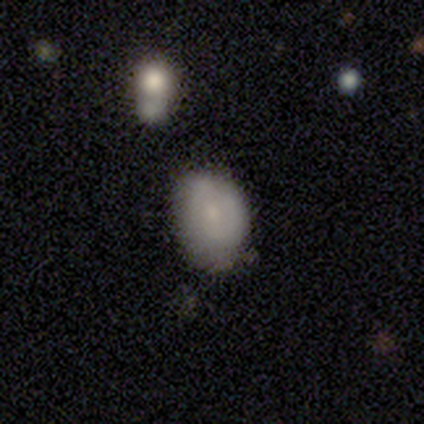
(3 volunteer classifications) Smooth or featured? featured or disk (67%)
Edge-on disk? yes (50%, tied with no)
Edge-on bulge? none (100%)
Merging? none (100%)